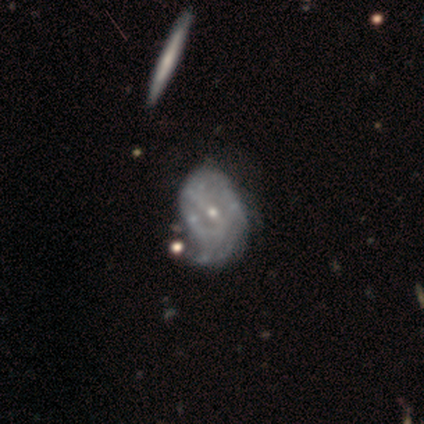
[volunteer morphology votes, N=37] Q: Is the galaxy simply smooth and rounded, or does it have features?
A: featured or disk — 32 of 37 (86%).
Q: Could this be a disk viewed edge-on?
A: no — 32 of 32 (100%).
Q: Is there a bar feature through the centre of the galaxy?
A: no — 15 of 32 (47%).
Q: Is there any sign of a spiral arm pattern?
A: yes — 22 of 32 (69%).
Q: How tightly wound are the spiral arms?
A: tight — 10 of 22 (45%).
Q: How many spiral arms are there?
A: can't tell — 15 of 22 (68%).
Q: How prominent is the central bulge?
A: small — 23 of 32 (72%).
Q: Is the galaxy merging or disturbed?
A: none — 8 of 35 (23%, tied with minor disturbance).